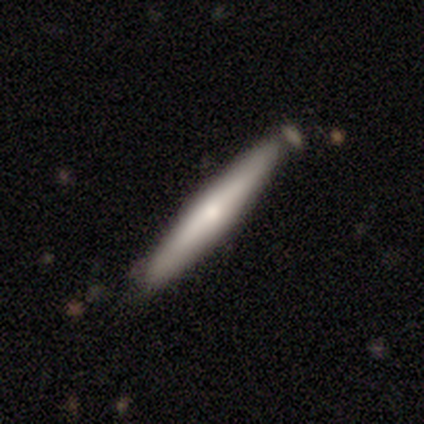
Smooth or featured? 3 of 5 (60%) said featured or disk. Edge-on disk? 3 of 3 (100%) said yes. Edge-on bulge? 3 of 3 (100%) said rounded. Merging? 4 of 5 (80%) said none.